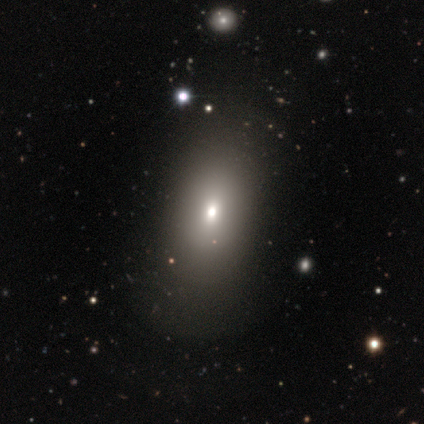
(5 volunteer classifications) smooth-or-featured: smooth: 60% | featured or disk: 20% | star or artifact: 20%
  how-rounded: in between: 100% | round: 0% | cigar-shaped: 0%
  merging: none: 100% | minor disturbance: 0% | major disturbance: 0% | merger: 0%